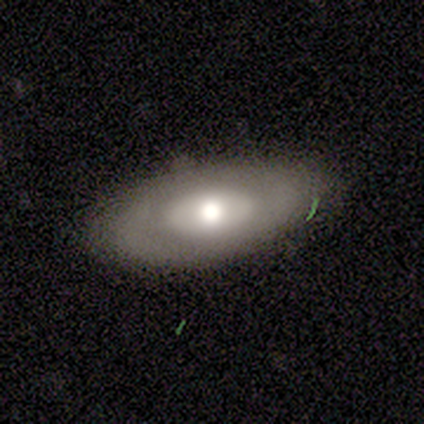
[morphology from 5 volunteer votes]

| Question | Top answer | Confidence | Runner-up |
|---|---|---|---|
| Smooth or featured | smooth | 60% | featured or disk (40%) |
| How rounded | in between | 100% | — |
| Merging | minor disturbance | 80% | none (20%) |